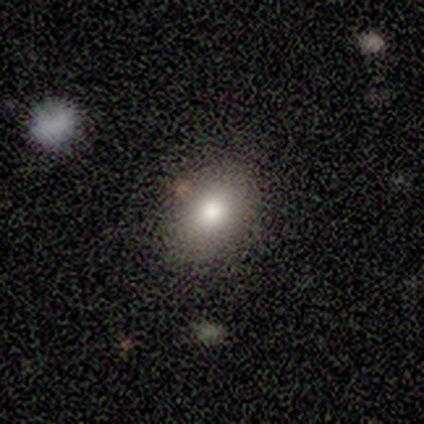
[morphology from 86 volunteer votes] Smooth or featured? smooth (80%)
How rounded? in between (67%)
Merging? none (84%)